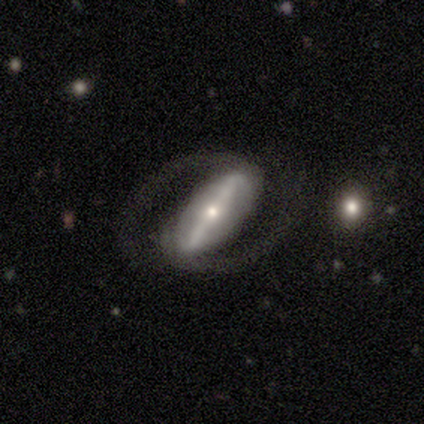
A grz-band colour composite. It shows a featured or disk galaxy (100%) with a strong bar (100%), 2 (100%) medium (60%) spiral arms (100%) and a small central bulge (100%). Merging: none (80%).